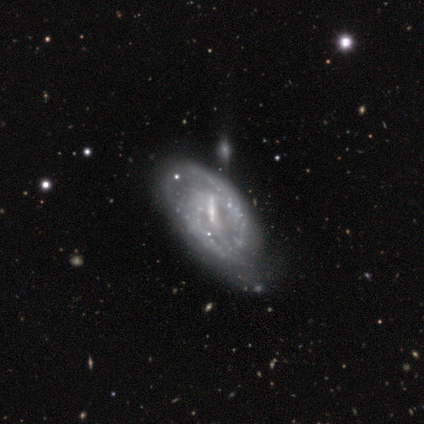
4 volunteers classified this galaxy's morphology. smooth-or-featured: featured or disk: 50% | smooth: 25% | star or artifact: 25%
  disk-edge-on: no: 100% | yes: 0%
    bar: strong: 50% (tied) | weak: 50% (tied) | no: 0%
    has-spiral-arms: yes: 100% | no: 0%
      spiral-winding: medium: 100% | tight: 0% | loose: 0%
      spiral-arm-count: 1: 50% (tied) | 2: 50% (tied) | 3: 0% | 4: 0% | more than 4: 0% | can't tell: 0%
    bulge-size: moderate: 50% (tied) | small: 50% (tied) | dominant: 0% | large: 0% | none: 0%
  merging: none: 33% (tied) | minor disturbance: 33% (tied) | major disturbance: 33% (tied) | merger: 0%